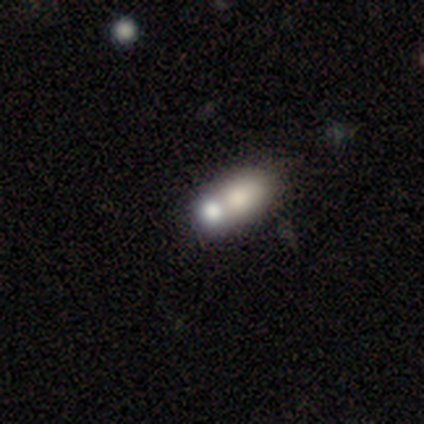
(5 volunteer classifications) Q: Smooth or featured?
A: smooth (60%); runner-up: star or artifact (40%)
Q: How rounded?
A: in between (67%); runner-up: round (33%)
Q: Merging?
A: none (67%); runner-up: merger (33%)